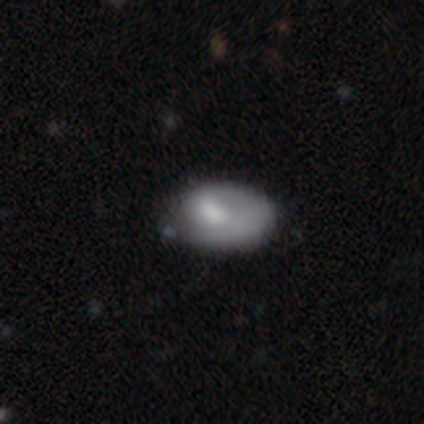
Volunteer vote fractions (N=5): Smooth or featured? smooth (60%)
How rounded? in between (67%)
Merging? minor disturbance (60%)